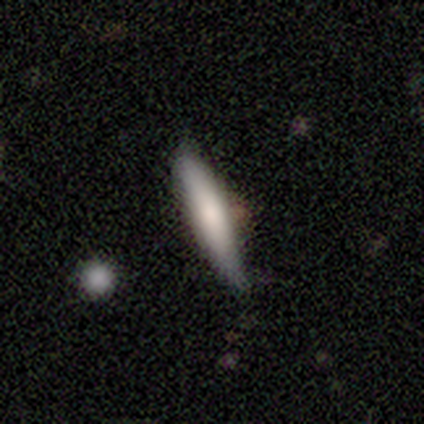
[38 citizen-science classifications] smooth-or-featured: smooth: 74% | featured or disk: 24% | star or artifact: 3%
  how-rounded: cigar-shaped: 89% | in between: 11% | round: 0%
  merging: none: 81% | minor disturbance: 19% | major disturbance: 0% | merger: 0%